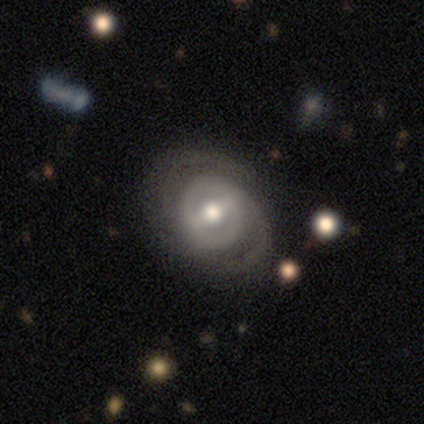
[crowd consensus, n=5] Smooth or featured? featured or disk (80%)
Edge-on disk? no (100%)
Bar? strong (75%)
Spiral arms? yes (100%)
Spiral winding? tight (50%)
Spiral arm count? 2 (100%)
Bulge size? moderate (75%)
Merging? none (40%, tied with minor disturbance)